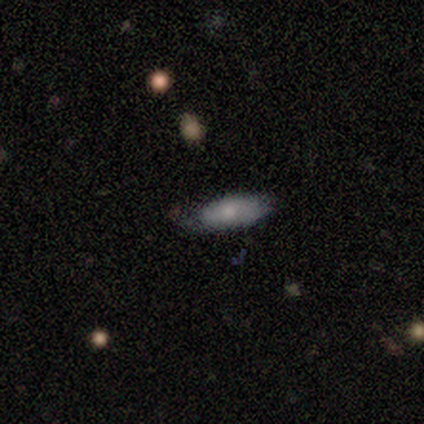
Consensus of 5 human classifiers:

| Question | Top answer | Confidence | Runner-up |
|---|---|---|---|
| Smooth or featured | smooth | 60% | featured or disk (20%) |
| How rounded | in between | 67% | cigar-shaped (33%) |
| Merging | none | 75% | minor disturbance (25%) |